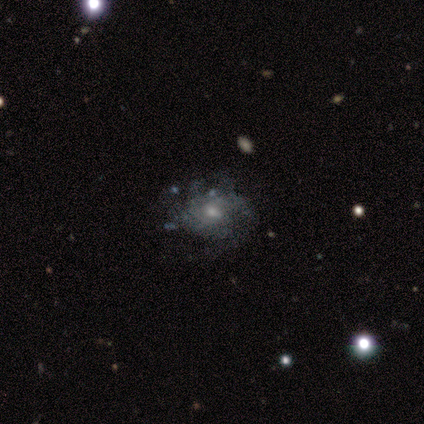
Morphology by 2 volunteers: This is clearly a featured or disk galaxy (100%). It is clearly not viewed edge-on (100%). Bar: clearly weak (100%). Spiral arm pattern: possibly yes (50%, tied with no). Spiral arm count: clearly 2 (100%). Spiral winding: clearly tight (100%). Central bulge: possibly moderate (50%, tied with small). Merging: clearly none (100%).